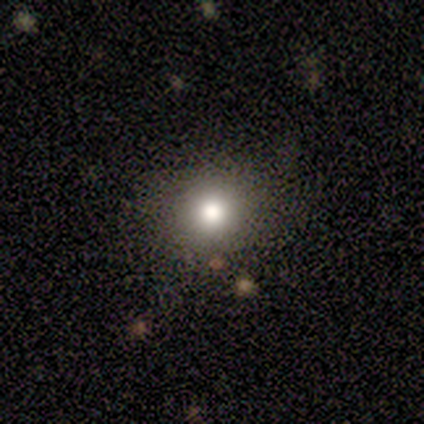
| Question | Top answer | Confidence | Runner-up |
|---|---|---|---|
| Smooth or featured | star or artifact | 60% | smooth (40%) |